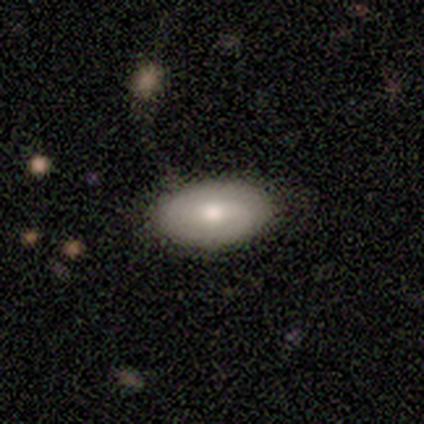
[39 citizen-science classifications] Q: Smooth or featured?
A: smooth (64%); runner-up: featured or disk (31%)
Q: How rounded?
A: in between (96%); runner-up: round (4%)
Q: Merging?
A: none (73%); runner-up: minor disturbance (19%)